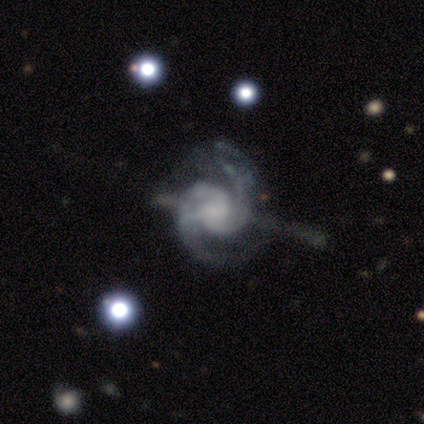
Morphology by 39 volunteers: Smooth or featured? 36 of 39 (92%) said featured or disk. Edge-on disk? 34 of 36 (94%) said no. Bar? 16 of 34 (47%) said no. Spiral arms? 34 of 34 (100%) said yes. Spiral winding? 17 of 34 (50%) said medium. Spiral arm count? 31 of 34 (91%) said 2. Bulge size? 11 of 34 (32%) said small. Merging? 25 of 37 (68%) said none.